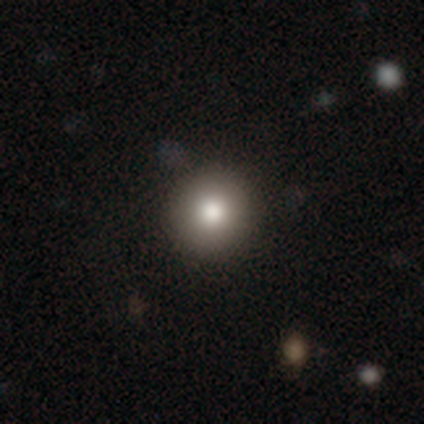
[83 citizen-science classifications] This is likely a smooth galaxy (80%). How rounded: clearly round (98%). Merging: clearly none (90%).